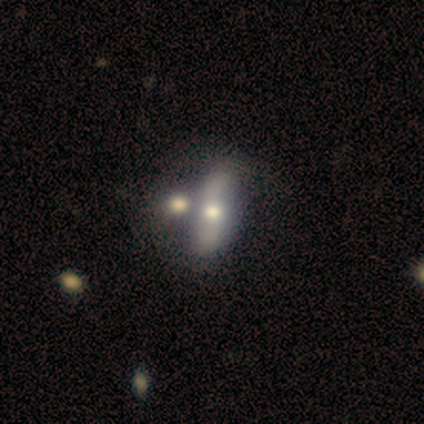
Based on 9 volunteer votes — A featured or disk galaxy (78%) with no bar (83%), 2 (100%) loose (100%) spiral arms (67%) and a moderate central bulge (83%).

Vote fractions:
- Smooth or featured? featured or disk: 78% / smooth: 22% / star or artifact: 0%
- Edge-on disk? no: 86% / yes: 14%
- Bar? no: 83% / weak: 17% / strong: 0%
- Spiral arms? yes: 67% / no: 33%
- Spiral winding? loose: 100% / tight: 0% / medium: 0%
- Spiral arm count? 2: 100% / 1: 0% / 3: 0% / 4: 0% / more than 4: 0% / can't tell: 0%
- Bulge size? moderate: 83% / large: 17% / dominant: 0% / small: 0% / none: 0%
- Merging? none: 56% / merger: 44% / minor disturbance: 0% / major disturbance: 0%